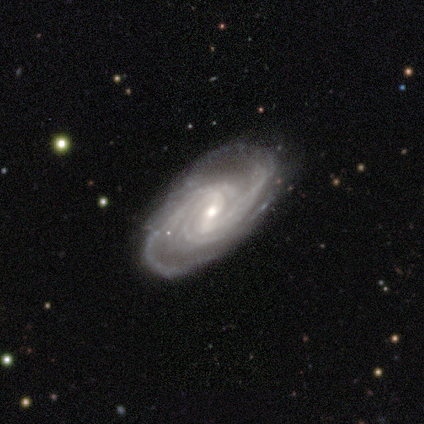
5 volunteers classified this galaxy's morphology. smooth-or-featured: featured or disk: 100% | smooth: 0% | star or artifact: 0%
  disk-edge-on: no: 100% | yes: 0%
    bar: strong: 40% (tied) | weak: 40% (tied) | no: 20%
    has-spiral-arms: yes: 100% | no: 0%
      spiral-winding: medium: 60% | tight: 40% | loose: 0%
      spiral-arm-count: 3: 60% | more than 4: 40% | 1: 0% | 2: 0% | 4: 0% | can't tell: 0%
    bulge-size: small: 60% | moderate: 20% | none: 20% | dominant: 0% | large: 0%
  merging: none: 60% | minor disturbance: 20% | major disturbance: 20% | merger: 0%